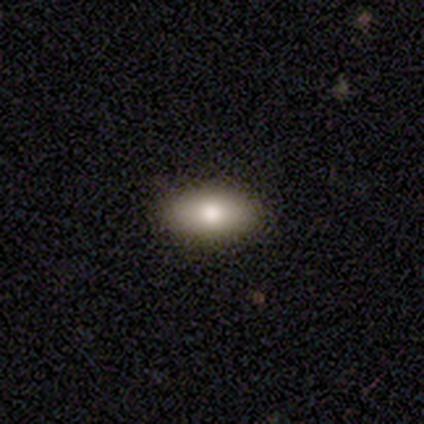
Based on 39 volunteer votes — Q: Smooth or featured?
A: smooth (74%); runner-up: featured or disk (13%)
Q: How rounded?
A: in between (97%); runner-up: round (3%)
Q: Merging?
A: none (88%); runner-up: minor disturbance (12%)